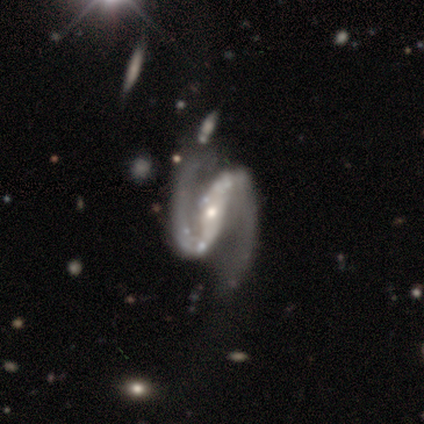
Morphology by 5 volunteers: Smooth or featured?
  - featured or disk: 80% *
  - star or artifact: 20%
  - smooth: 0%
Edge-on disk?
  - no: 100% *
  - yes: 0%
Bar?
  - strong: 75% *
  - no: 25%
  - weak: 0%
Spiral arms?
  - yes: 75% *
  - no: 25%
Spiral winding?
  - tight: 33% * (tied)
  - medium: 33% * (tied)
  - loose: 33% * (tied)
Spiral arm count?
  - 2: 100% *
  - 1: 0%
  - 3: 0%
  - 4: 0%
  - more than 4: 0%
  - can't tell: 0%
Bulge size?
  - small: 100% *
  - dominant: 0%
  - large: 0%
  - moderate: 0%
  - none: 0%
Merging?
  - none: 75% *
  - major disturbance: 25%
  - minor disturbance: 0%
  - merger: 0%